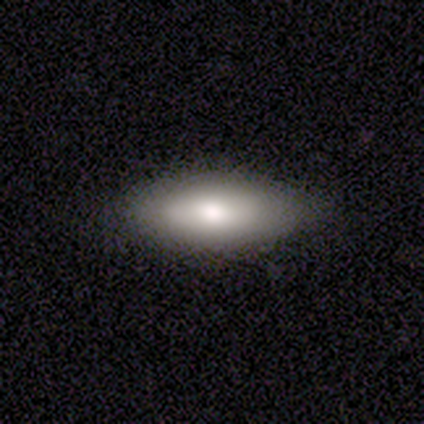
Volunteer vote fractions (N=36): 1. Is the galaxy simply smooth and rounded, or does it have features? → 75% smooth, 14% featured or disk, 11% star or artifact.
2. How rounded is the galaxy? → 70% in between, 30% cigar-shaped, 0% round.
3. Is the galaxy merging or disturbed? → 75% none, 16% minor disturbance, 9% major disturbance, 0% merger.